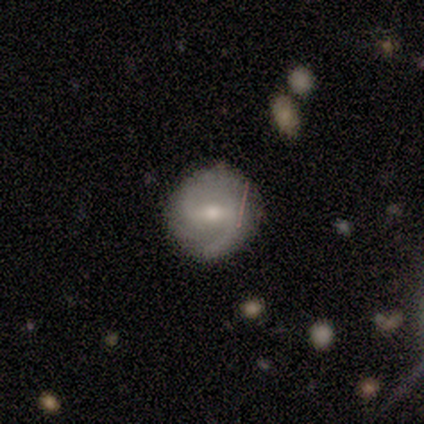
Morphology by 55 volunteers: Overall: featured or disk (82%). Edge-on disk: no (100%). Bar: weak (60%; strong 33%). Spiral arms: yes (96%). Spiral arm count: 2 (86%). Spiral winding: medium (53%; loose 26%). Bulge size: moderate (69%). Merging: none (76%).